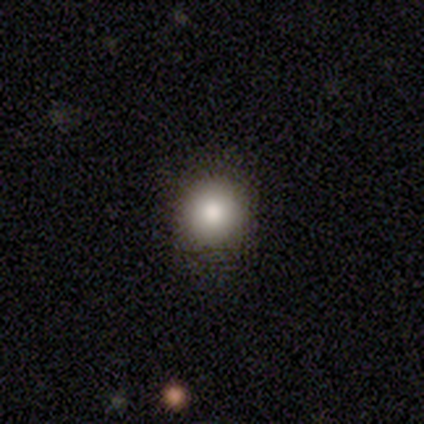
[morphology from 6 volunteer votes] type=smooth (67%); roundness=round (100%); merging=none (100%).